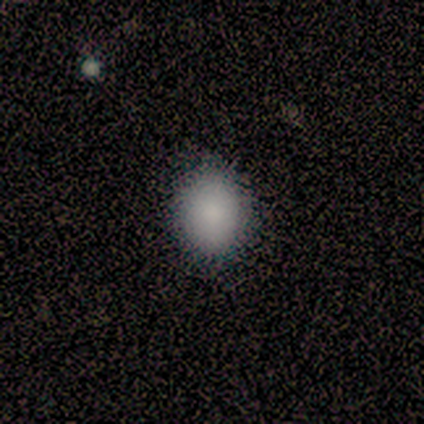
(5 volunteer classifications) This is clearly a smooth galaxy (80%). How rounded: clearly round (100%). Merging: clearly none (100%).